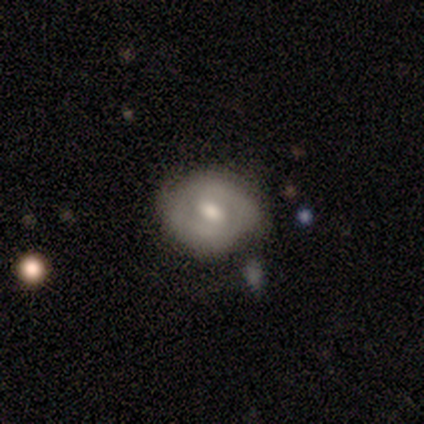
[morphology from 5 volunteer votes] Overall: featured or disk (60%; smooth 40%). Edge-on disk: no (100%). Bar: no (67%; weak 33%). Spiral arms: no (100%). Bulge size: large (67%; moderate 33%). Merging: none (60%; minor disturbance 20%).